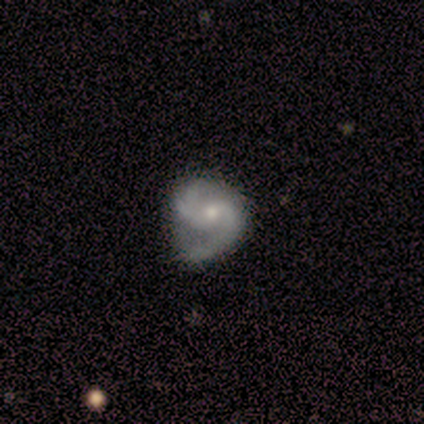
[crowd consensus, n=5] This appears to be a featured or disk galaxy (80%) with a weak bar (50%, tied with no), 2 (50%) medium (75%) spiral arms (100%) and a moderate central bulge (50%, tied with small). Merging: none (60%).